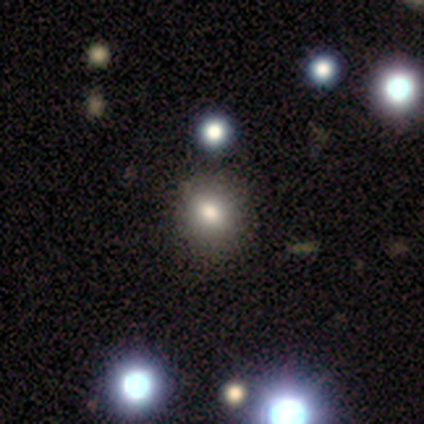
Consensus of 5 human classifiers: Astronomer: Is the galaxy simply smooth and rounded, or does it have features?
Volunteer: smooth — 80%.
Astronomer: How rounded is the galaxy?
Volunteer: round — 100%.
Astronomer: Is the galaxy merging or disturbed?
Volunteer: none — 100%.